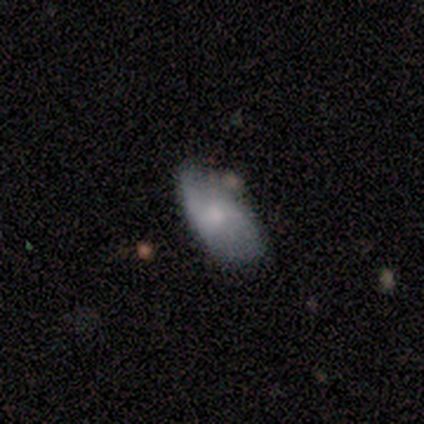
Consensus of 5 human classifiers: Morphology: type=smooth (100%); roundness=in between (100%); merging=minor disturbance (60%).